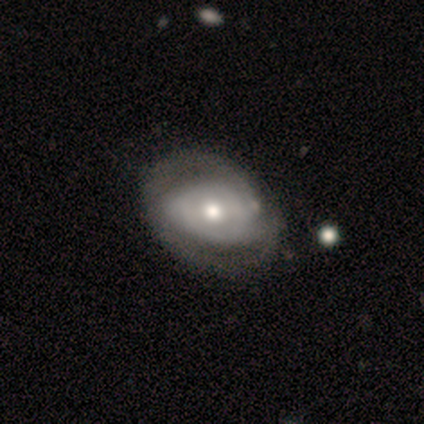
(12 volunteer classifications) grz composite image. It shows a featured or disk galaxy (83%) with no bar (70%), 2 (60%) tight (40%, tied with medium) spiral arms (50%, tied with no) and a moderate central bulge (80%). Merging: none (82%).